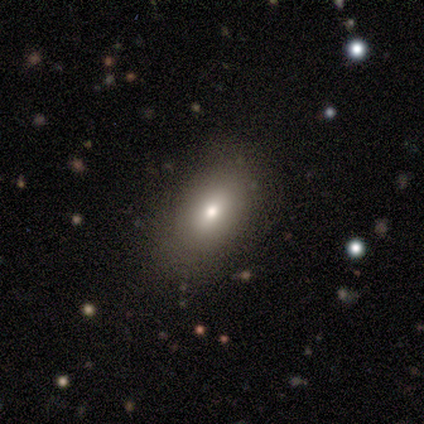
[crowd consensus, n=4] Smooth or featured?
  - smooth: 100% *
  - featured or disk: 0%
  - star or artifact: 0%
How rounded?
  - in between: 100% *
  - round: 0%
  - cigar-shaped: 0%
Merging?
  - none: 100% *
  - minor disturbance: 0%
  - major disturbance: 0%
  - merger: 0%